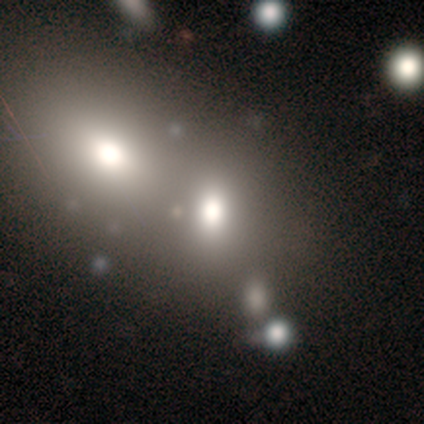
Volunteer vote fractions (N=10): Smooth or featured: smooth — 80% (star or artifact — 20%)
How rounded: round — 62% (in between — 38%)
Merging: merger — 75% (none — 25%)